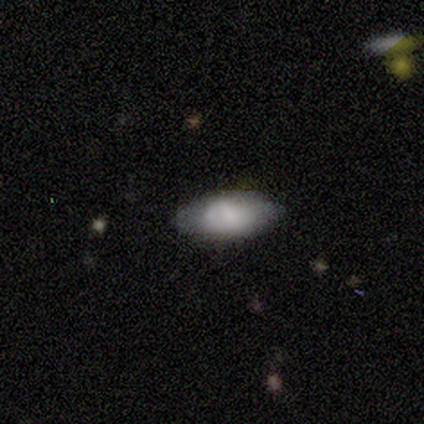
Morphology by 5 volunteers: A smooth galaxy with no disk features (80%) that is in between round and cigar-shaped (75%). Merging: none (100%).